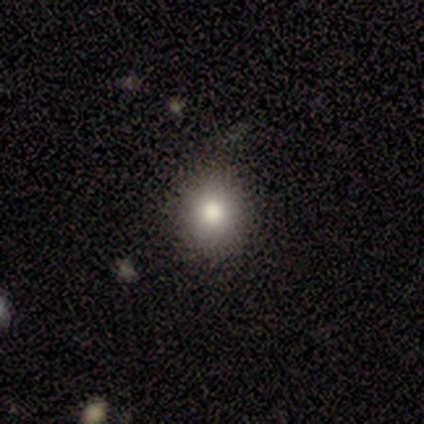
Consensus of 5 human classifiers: Smooth or featured? 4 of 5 (80%) said smooth. How rounded? 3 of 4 (75%) said round. Merging? 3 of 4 (75%) said none.